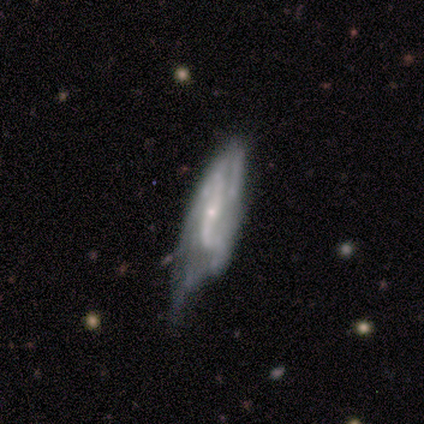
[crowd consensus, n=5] smooth-or-featured: featured or disk: 60% | smooth: 40% | star or artifact: 0%
  disk-edge-on: no: 100% | yes: 0%
    bar: strong: 33% (tied) | weak: 33% (tied) | no: 33% (tied)
    has-spiral-arms: yes: 100% | no: 0%
      spiral-winding: loose: 100% | tight: 0% | medium: 0%
      spiral-arm-count: can't tell: 67% | 2: 33% | 1: 0% | 3: 0% | 4: 0% | more than 4: 0%
    bulge-size: small: 67% | none: 33% | dominant: 0% | large: 0% | moderate: 0%
  merging: minor disturbance: 40% (tied) | major disturbance: 40% (tied) | none: 20% | merger: 0%